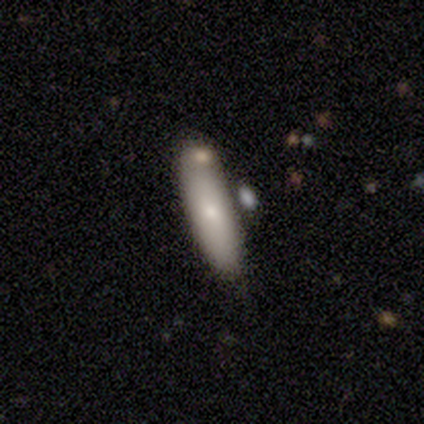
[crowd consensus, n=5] Overall: smooth (60%; featured or disk 40%). How rounded: cigar-shaped (67%; in between 33%). Merging: minor disturbance (60%; none 40%).